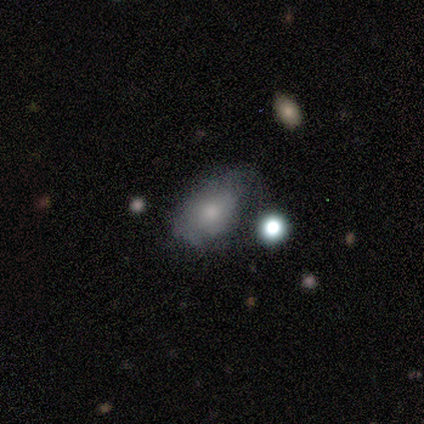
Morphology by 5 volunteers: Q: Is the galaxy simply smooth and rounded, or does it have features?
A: smooth — 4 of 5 (80%).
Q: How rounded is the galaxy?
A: in between — 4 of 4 (100%).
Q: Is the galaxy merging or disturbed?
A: minor disturbance — 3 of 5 (60%).